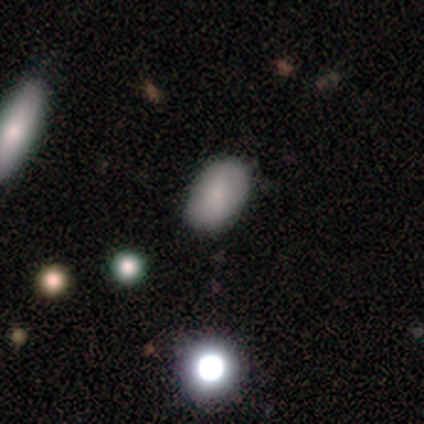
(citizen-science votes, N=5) Q: Smooth or featured?
A: smooth (100%)
Q: How rounded?
A: in between (80%); runner-up: round (20%)
Q: Merging?
A: none (100%)